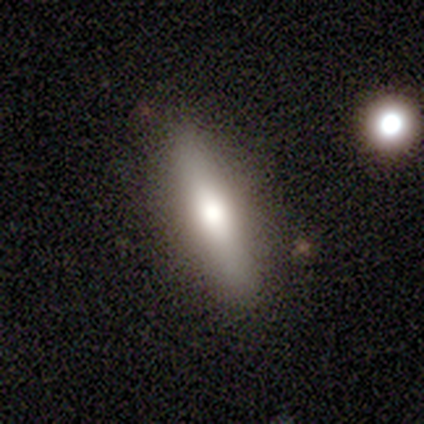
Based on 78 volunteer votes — smooth-or-featured: smooth: 62% | featured or disk: 32% | star or artifact: 6%
  how-rounded: cigar-shaped: 71% | in between: 27% | round: 2%
  merging: none: 64% | merger: 4% | minor disturbance: 3% | major disturbance: 0%